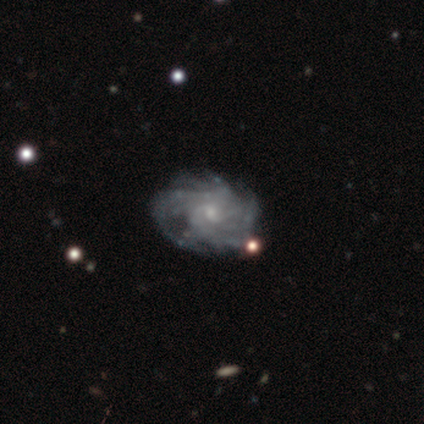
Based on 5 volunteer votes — smooth_or_featured: featured or disk (p=1.00)
disk_edge_on: no (p=1.00)
bar: no (p=0.80) [alt: weak p=0.20]
has_spiral_arms: yes (p=1.00)
spiral_winding: tight (p=0.80) [alt: medium p=0.20]
spiral_arm_count: more than 4 (p=0.40) [tied with: can't tell p=0.40]
bulge_size: small (p=0.60) [alt: moderate p=0.40]
merging: none (p=1.00)